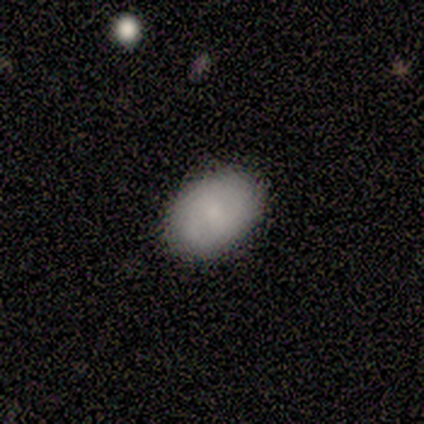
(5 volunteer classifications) This is likely a featured or disk galaxy (60%). It is clearly not viewed edge-on (100%). Bar: clearly no (100%). Spiral arm pattern: likely yes (67%). Spiral arm count: possibly 2 (50%, tied with 3). Spiral winding: possibly tight (50%, tied with medium). Central bulge: clearly small (100%). Merging: clearly none (100%).